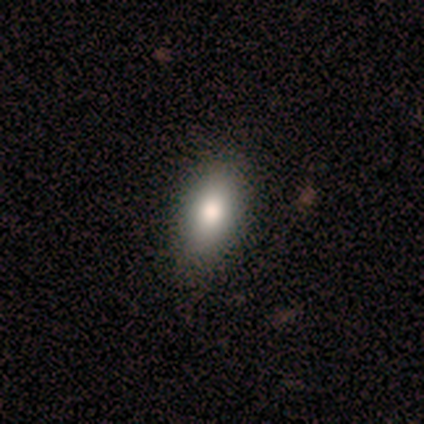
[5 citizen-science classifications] A smooth galaxy with no disk features (80%) that is in between round and cigar-shaped (100%). Merging: none (100%).